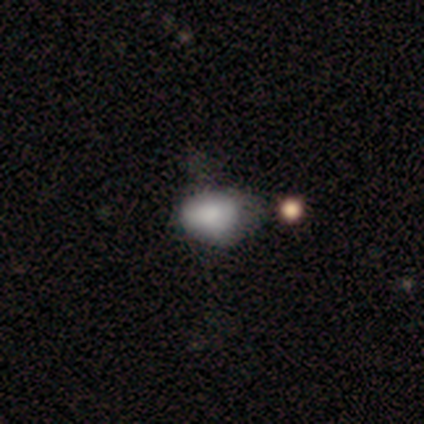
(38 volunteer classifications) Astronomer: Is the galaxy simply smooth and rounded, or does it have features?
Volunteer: smooth — 79%.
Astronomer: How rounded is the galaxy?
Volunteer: in between — 70%.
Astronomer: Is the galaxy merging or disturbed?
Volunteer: minor disturbance — 52% (runner-up: none, 45%).